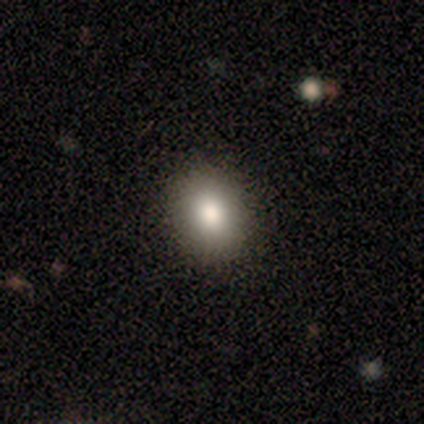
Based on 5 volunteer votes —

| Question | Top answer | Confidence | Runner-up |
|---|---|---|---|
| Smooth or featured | smooth | 100% | — |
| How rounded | round | 100% | — |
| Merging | none | 100% | — |